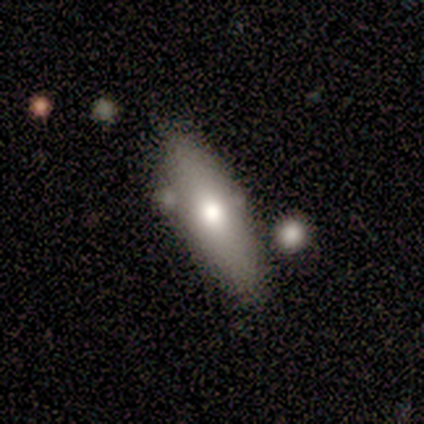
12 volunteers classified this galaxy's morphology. Smooth or featured?
  - smooth: 67% *
  - featured or disk: 33%
  - star or artifact: 0%
How rounded?
  - in between: 50% * (tied)
  - cigar-shaped: 50% * (tied)
  - round: 0%
Merging?
  - none: 50% *
  - minor disturbance: 25%
  - merger: 17%
  - major disturbance: 8%